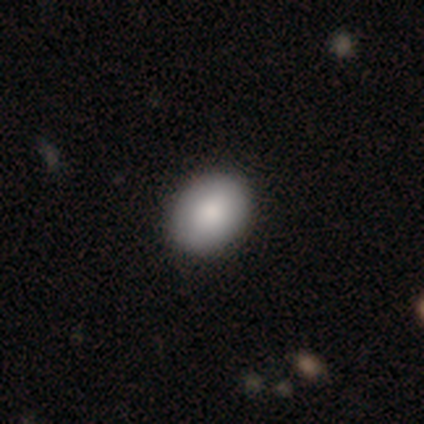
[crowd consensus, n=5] Q: Smooth or featured?
A: smooth (100%)
Q: How rounded?
A: in between (60%); runner-up: round (40%)
Q: Merging?
A: none (100%)